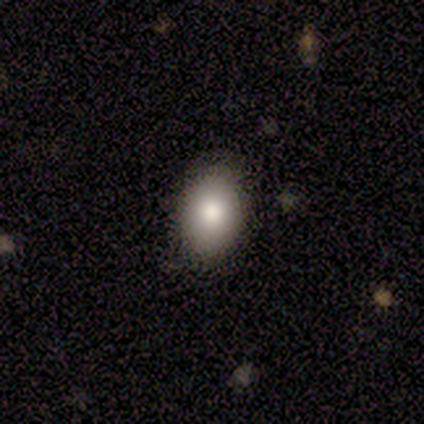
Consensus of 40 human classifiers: Overall: smooth (85%). How rounded: in between (85%). Merging: none (54%).